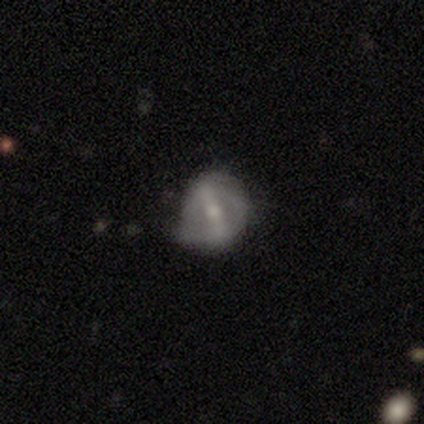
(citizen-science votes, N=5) featured or disk 60%, smooth 20%, star or artifact 20%. Down the decision tree: edge-on disk — no (100%); bar — strong (67%); spiral arms — no (67%); bulge size — small (67%); merging — none (50%, tied with minor disturbance).